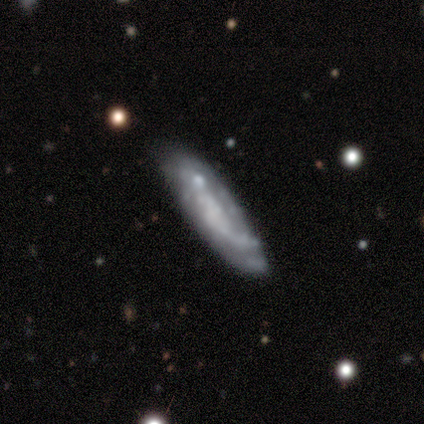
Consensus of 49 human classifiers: Morphology: type=featured or disk (63%); edge-on=no (74%); bar=no (78%); spiral arms=yes (65%); winding=loose (53%); arm count=can't tell (53%); bulge=none (70%); merging=none (60%).